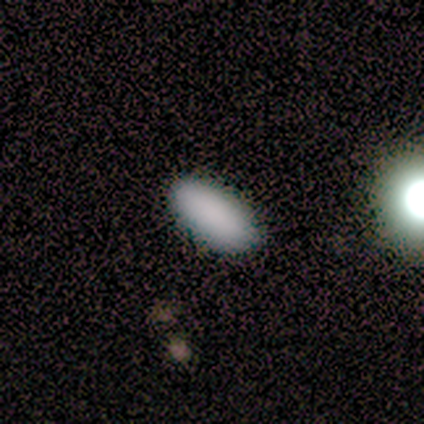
Smooth or featured? smooth (88%)
How rounded? in between (100%)
Merging? none (88%)